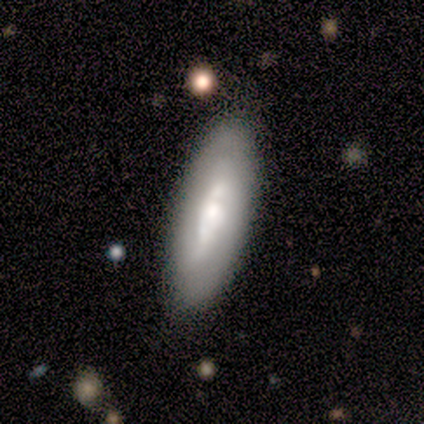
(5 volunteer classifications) Q: Smooth or featured?
A: featured or disk (60%); runner-up: smooth (40%)
Q: Edge-on disk?
A: no (100%)
Q: Bar?
A: weak (67%); runner-up: no (33%)
Q: Spiral arms?
A: yes (67%); runner-up: no (33%)
Q: Spiral winding?
A: tight (100%)
Q: Spiral arm count?
A: 2 (100%)
Q: Bulge size?
A: moderate (67%); runner-up: none (33%)
Q: Merging?
A: none (80%); runner-up: merger (20%)